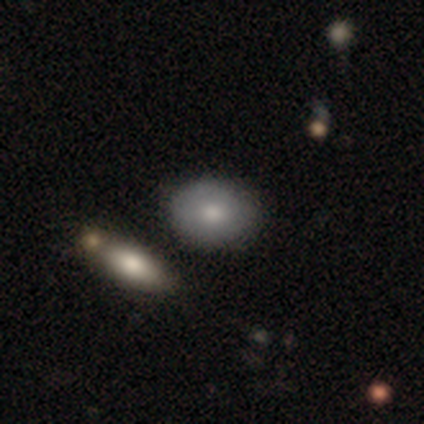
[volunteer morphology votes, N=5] Q: Smooth or featured?
A: smooth (100%)
Q: How rounded?
A: in between (60%); runner-up: round (40%)
Q: Merging?
A: none (100%)